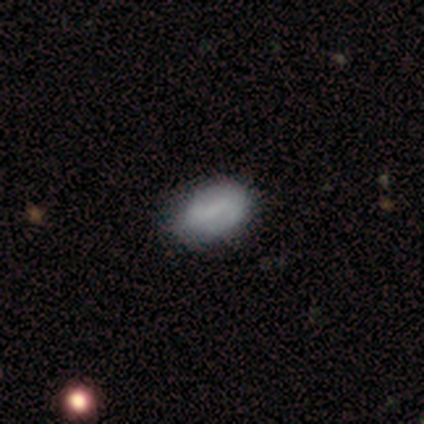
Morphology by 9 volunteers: Smooth or featured? 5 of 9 (56%) said smooth. How rounded? 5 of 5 (100%) said in between. Merging? 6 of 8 (75%) said none.